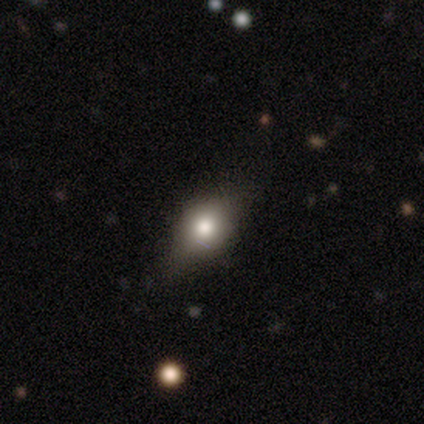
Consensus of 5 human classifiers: A smooth galaxy with no disk features (60%) that is round (67%).

Vote fractions:
- Smooth or featured? smooth: 60% / featured or disk: 40% / star or artifact: 0%
- How rounded? round: 67% / cigar-shaped: 33% / in between: 0%
- Merging? none: 80% / minor disturbance: 20% / major disturbance: 0% / merger: 0%